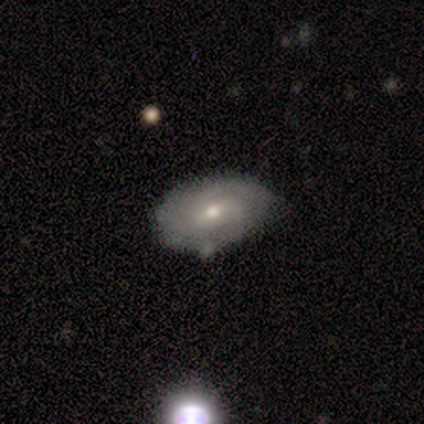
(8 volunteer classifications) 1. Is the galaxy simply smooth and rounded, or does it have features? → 75% featured or disk, 12% smooth, 12% star or artifact.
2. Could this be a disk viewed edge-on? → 100% no, 0% yes.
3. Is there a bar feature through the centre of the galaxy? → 50% weak (tied), 50% no (tied), 0% strong.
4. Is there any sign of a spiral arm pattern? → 67% no, 33% yes.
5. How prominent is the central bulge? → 50% moderate (tied), 50% small (tied), 0% dominant, 0% large, 0% none.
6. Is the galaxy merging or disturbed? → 57% none, 43% minor disturbance, 0% major disturbance, 0% merger.